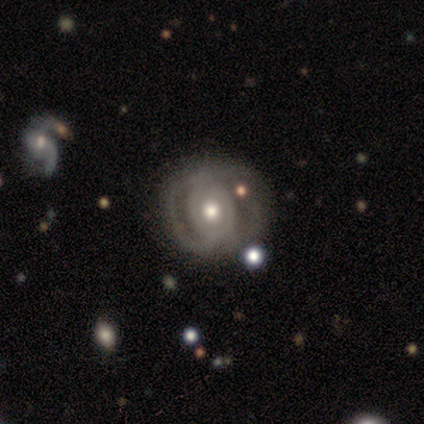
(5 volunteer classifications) Smooth or featured?
  - featured or disk: 80% *
  - smooth: 20%
  - star or artifact: 0%
Edge-on disk?
  - no: 75% *
  - yes: 25%
Bar?
  - no: 100% *
  - strong: 0%
  - weak: 0%
Spiral arms?
  - no: 100% *
  - yes: 0%
Bulge size?
  - moderate: 67% *
  - small: 33%
  - dominant: 0%
  - large: 0%
  - none: 0%
Merging?
  - none: 60% *
  - minor disturbance: 40%
  - major disturbance: 0%
  - merger: 0%